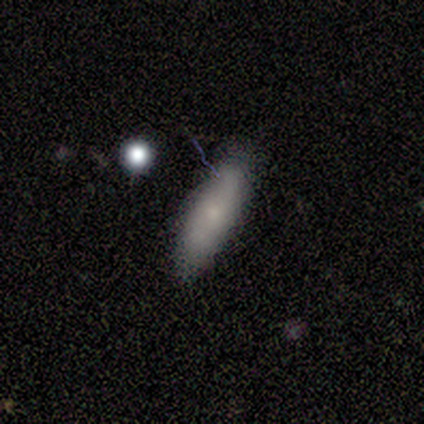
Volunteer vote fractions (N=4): smooth 75%, star or artifact 25%, featured or disk 0%. Down the decision tree: how rounded — in between (67%); merging — minor disturbance (67%).